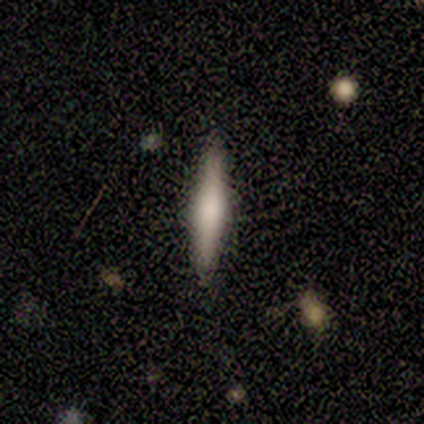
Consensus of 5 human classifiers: This appears to be a smooth galaxy with no disk features (80%) that is in between round and cigar-shaped (75%). Merging: none (100%).